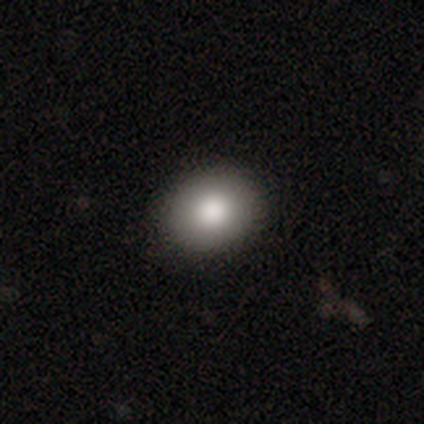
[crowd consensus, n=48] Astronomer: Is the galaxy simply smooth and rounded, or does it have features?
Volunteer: smooth — 79%.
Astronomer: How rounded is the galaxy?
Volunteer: round — 74%.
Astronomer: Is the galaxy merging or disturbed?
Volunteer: none — 86%.